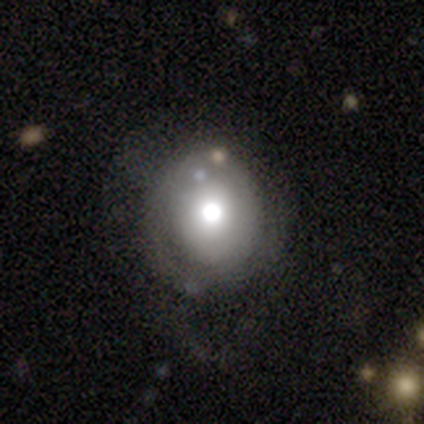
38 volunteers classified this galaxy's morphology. Q: Smooth or featured?
A: smooth (47%); runner-up: featured or disk (34%)
Q: How rounded?
A: round (94%); runner-up: in between (6%)
Q: Merging?
A: none (68%); runner-up: minor disturbance (23%)